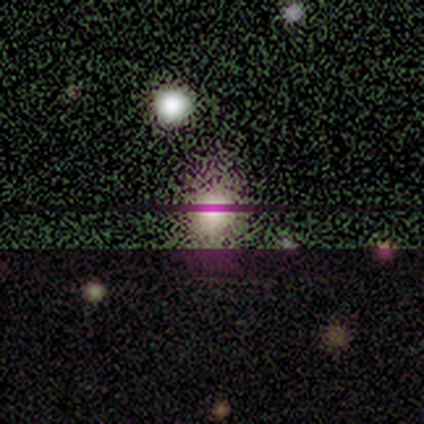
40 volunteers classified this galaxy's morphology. A smooth galaxy with no disk features (48%) that is round (63%). Merging: none (36%).